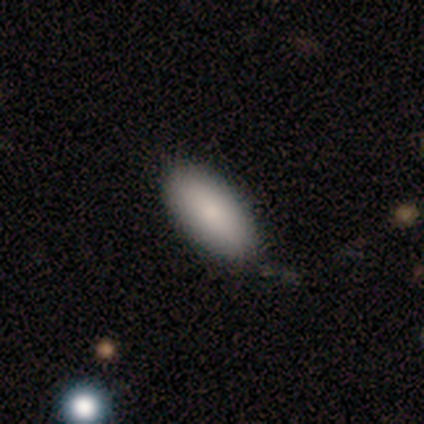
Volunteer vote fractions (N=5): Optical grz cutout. It shows a smooth galaxy with no disk features (80%) that is in between round and cigar-shaped (100%). Merging: none (80%).